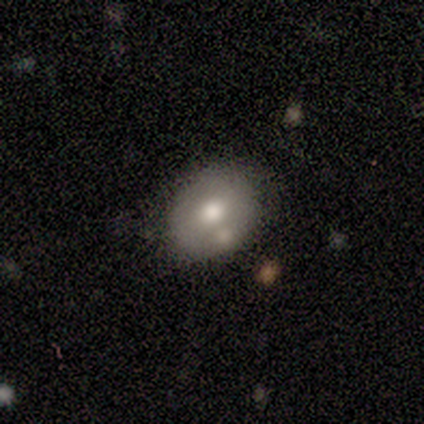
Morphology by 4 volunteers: smooth_or_featured: smooth (p=0.75) [alt: featured or disk p=0.25]
how_rounded: in between (p=1.00)
merging: none (p=0.75) [alt: merger p=0.25]